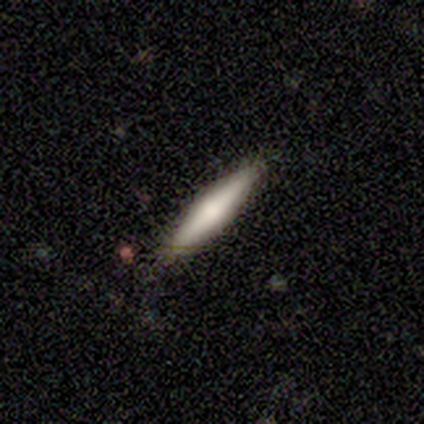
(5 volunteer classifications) smooth_or_featured: smooth (p=0.80) [alt: featured or disk p=0.20]
how_rounded: cigar-shaped (p=1.00)
merging: none (p=1.00)